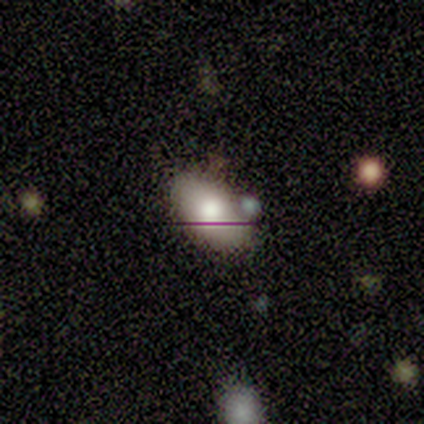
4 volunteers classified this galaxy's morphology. smooth 75%, featured or disk 25%, star or artifact 0%. Down the decision tree: how rounded — in between (100%); merging — none (75%).